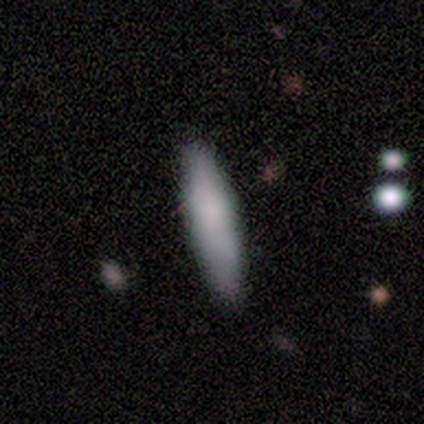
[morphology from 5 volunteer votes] This is clearly a smooth galaxy (80%). How rounded: clearly cigar-shaped (100%). Merging: likely none (60%).